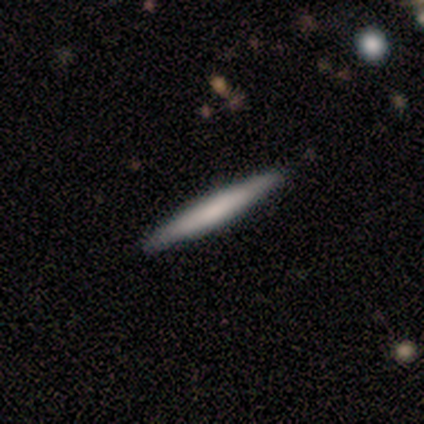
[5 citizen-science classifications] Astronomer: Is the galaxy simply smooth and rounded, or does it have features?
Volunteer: smooth — 80%.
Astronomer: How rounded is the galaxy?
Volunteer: cigar-shaped — 100%.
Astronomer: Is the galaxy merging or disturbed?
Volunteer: none — 80%.